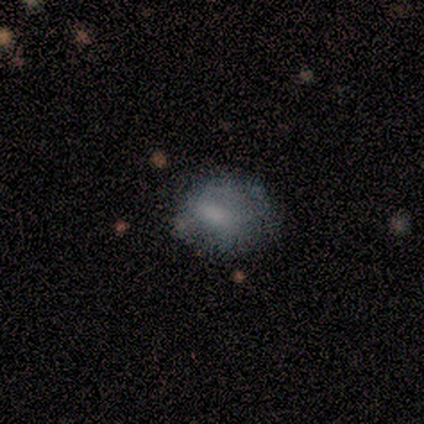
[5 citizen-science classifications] This is likely a smooth galaxy (60%). How rounded: likely in between (67%). Merging: possibly none (50%).